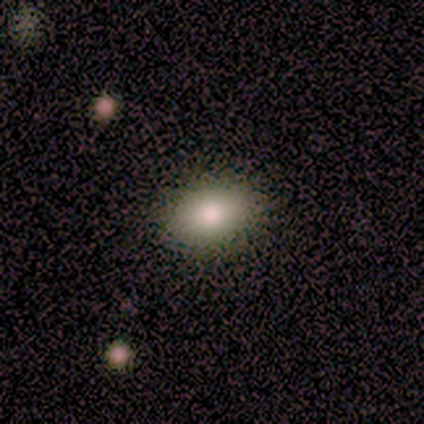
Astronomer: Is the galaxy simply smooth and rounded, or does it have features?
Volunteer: smooth — 100%.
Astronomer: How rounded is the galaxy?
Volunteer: in between — 80%.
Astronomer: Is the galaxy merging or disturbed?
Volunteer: none — 100%.